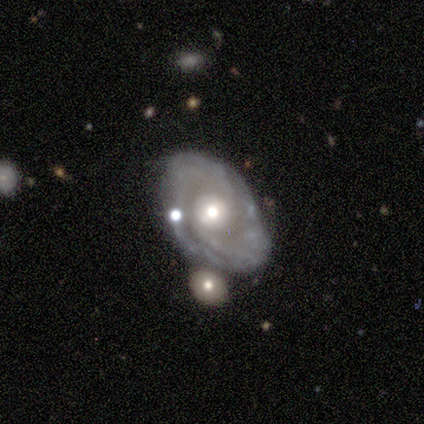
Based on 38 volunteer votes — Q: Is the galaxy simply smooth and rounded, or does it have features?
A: featured or disk — 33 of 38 (87%).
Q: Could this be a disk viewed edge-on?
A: no — 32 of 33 (97%).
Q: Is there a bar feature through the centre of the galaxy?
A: no — 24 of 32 (75%).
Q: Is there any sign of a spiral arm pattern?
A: yes — 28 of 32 (88%).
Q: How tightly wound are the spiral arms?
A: tight — 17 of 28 (61%).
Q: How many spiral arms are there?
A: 2 — 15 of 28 (54%).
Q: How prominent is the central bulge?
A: moderate — 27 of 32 (84%).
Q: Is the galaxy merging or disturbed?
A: none — 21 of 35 (60%).